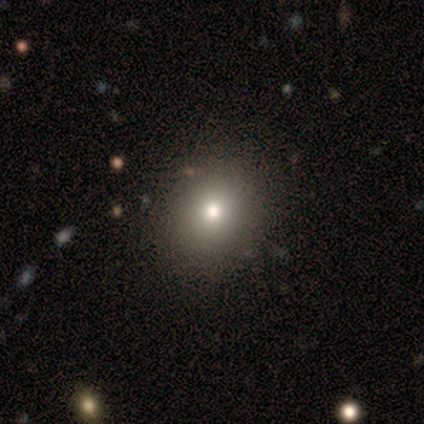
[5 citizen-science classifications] Volunteers were most divided on "how rounded": round: 75%, in between: 25%, cigar-shaped: 0%. More confident: merging — none (100%); smooth or featured — smooth (80%).